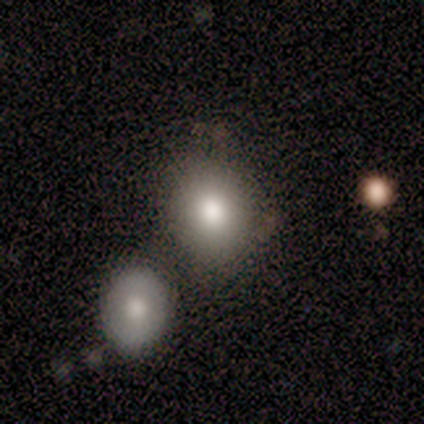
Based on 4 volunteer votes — A smooth galaxy with no disk features (50%, tied with featured or disk) that is in between round and cigar-shaped (100%).

Vote fractions:
- Smooth or featured? smooth: 50% (tied) / featured or disk: 50% (tied) / star or artifact: 0%
- How rounded? in between: 100% / round: 0% / cigar-shaped: 0%
- Merging? none: 50% (tied) / merger: 50% (tied) / minor disturbance: 0% / major disturbance: 0%